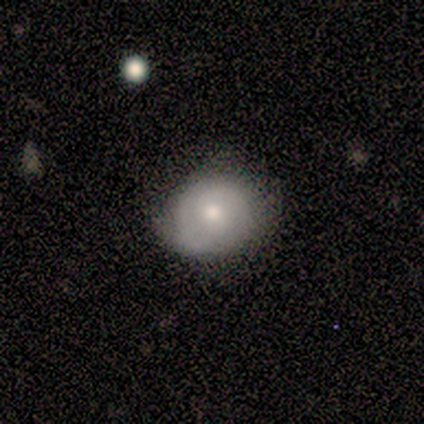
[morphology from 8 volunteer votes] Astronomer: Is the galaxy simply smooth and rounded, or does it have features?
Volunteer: smooth — 38%, tied with featured or disk at 38%.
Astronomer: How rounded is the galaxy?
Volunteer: round — 100%.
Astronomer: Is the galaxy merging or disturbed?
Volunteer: none — 67%.